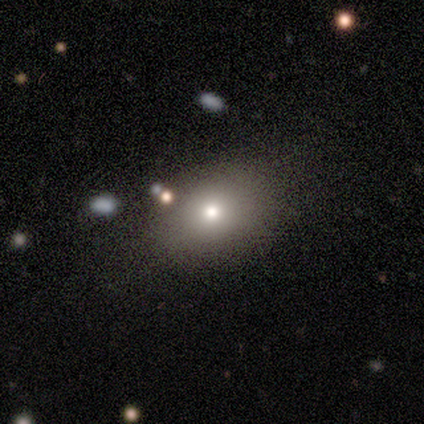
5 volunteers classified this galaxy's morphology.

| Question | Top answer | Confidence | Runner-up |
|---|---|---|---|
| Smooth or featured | featured or disk | 40% | tied: star or artifact (40%) |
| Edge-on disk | no | 100% | — |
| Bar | no | 100% | — |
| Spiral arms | yes | 50% | tied: no (50%) |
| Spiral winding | medium | 100% | — |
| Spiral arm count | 2 | 100% | — |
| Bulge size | small | 100% | — |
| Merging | none | 33% | tied: minor disturbance (33%), merger (33%) |